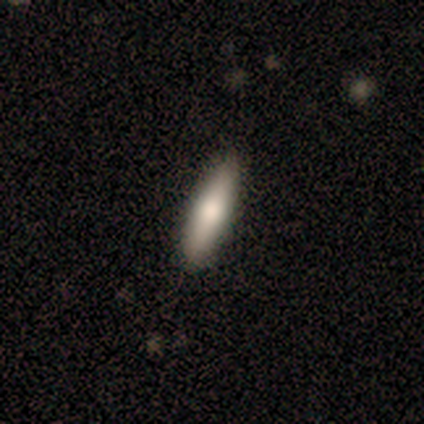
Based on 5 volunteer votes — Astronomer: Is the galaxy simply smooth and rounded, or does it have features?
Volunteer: smooth — 60% (runner-up: featured or disk, 40%).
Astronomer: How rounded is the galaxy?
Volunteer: cigar-shaped — 100%.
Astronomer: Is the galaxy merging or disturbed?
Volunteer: none — 100%.